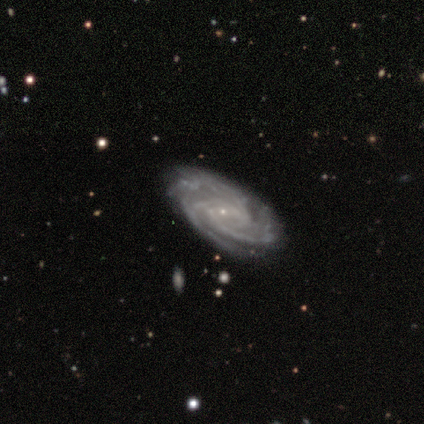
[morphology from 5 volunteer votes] This appears to be a featured or disk galaxy (100%) with a weak bar (75%), 3 (50%, tied with can't tell) medium (75%) spiral arms (100%) and a small central bulge (100%). Merging: none (100%).